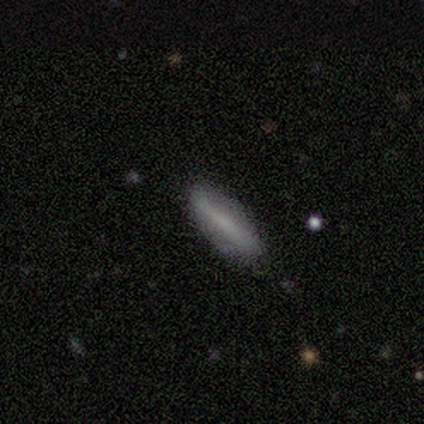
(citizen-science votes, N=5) smooth 80%, star or artifact 20%, featured or disk 0%. Down the decision tree: how rounded — cigar-shaped (100%); merging — none (75%).